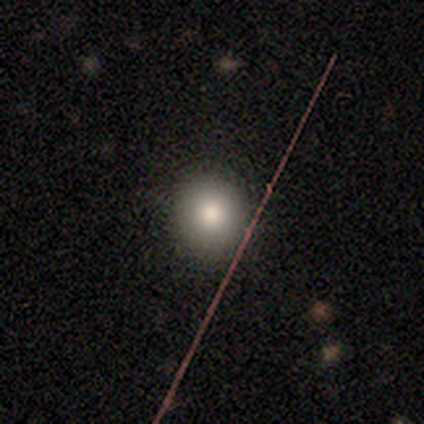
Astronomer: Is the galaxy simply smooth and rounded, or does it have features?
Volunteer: smooth — 69%.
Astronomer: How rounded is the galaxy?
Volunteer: round — 78%.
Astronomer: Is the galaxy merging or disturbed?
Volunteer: none — 88%.